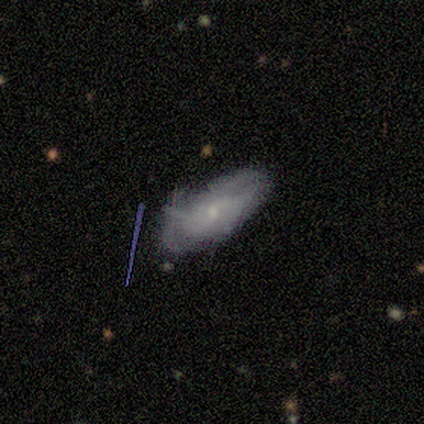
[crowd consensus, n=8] Smooth or featured: featured or disk — 62% (smooth — 38%)
Edge-on disk: no — 100%
Bar: no — 80% (weak — 20%)
Spiral arms: no — 60% (yes — 40%)
Bulge size: small — 80% (moderate — 20%)
Merging: none — 50% (tied with minor disturbance — 50%)